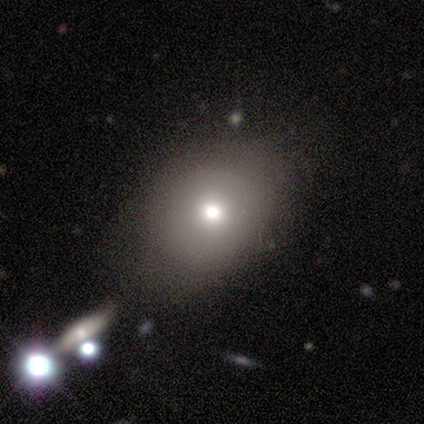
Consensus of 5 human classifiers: Overall: smooth (40%, tied with featured or disk). How rounded: round (50%, tied with in between). Merging: none (50%, tied with major disturbance).